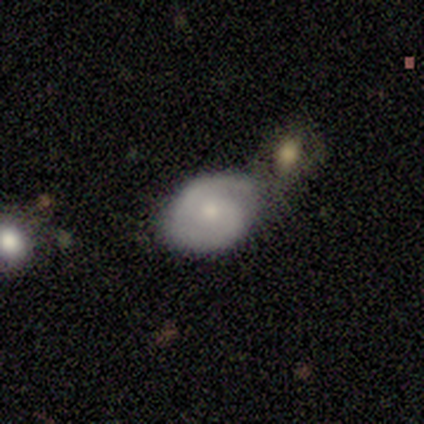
Smooth or featured?
  - smooth: 60% *
  - featured or disk: 40%
  - star or artifact: 0%
How rounded?
  - in between: 67% *
  - round: 33%
  - cigar-shaped: 0%
Merging?
  - minor disturbance: 60% *
  - none: 40%
  - major disturbance: 0%
  - merger: 0%